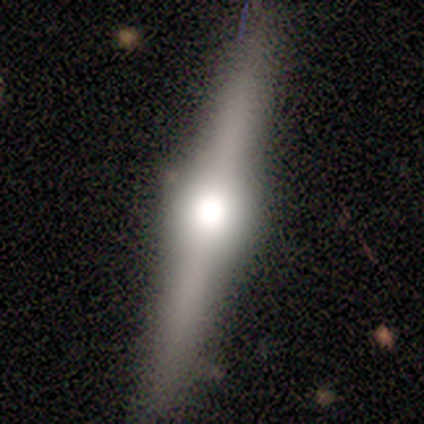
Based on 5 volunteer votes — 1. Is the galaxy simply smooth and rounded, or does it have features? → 60% featured or disk, 40% smooth, 0% star or artifact.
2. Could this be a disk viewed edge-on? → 100% yes, 0% no.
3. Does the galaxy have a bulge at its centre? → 100% rounded, 0% boxy, 0% none.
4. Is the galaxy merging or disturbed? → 100% none, 0% minor disturbance, 0% major disturbance, 0% merger.